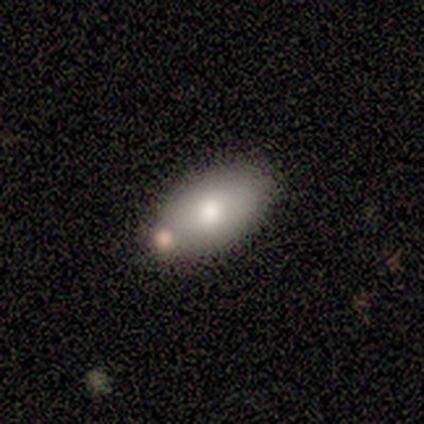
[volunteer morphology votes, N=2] Smooth or featured: smooth — 100%
How rounded: in between — 100%
Merging: none — 100%